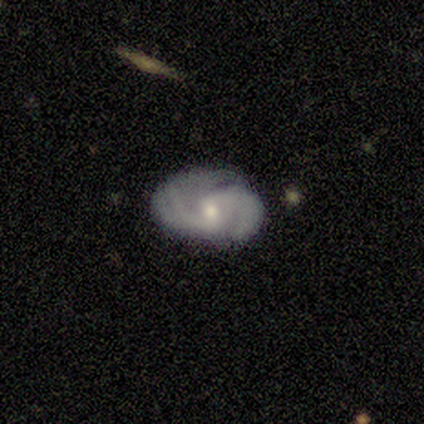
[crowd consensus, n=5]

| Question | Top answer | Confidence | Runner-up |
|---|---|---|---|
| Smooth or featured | featured or disk | 100% | — |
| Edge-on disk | no | 100% | — |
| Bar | weak | 60% | strong (20%) |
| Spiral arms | yes | 100% | — |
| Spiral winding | tight | 40% | tied: medium (40%) |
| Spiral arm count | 2 | 60% | 3 (20%) |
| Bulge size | moderate | 60% | small (40%) |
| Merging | minor disturbance | 60% | none (40%) |